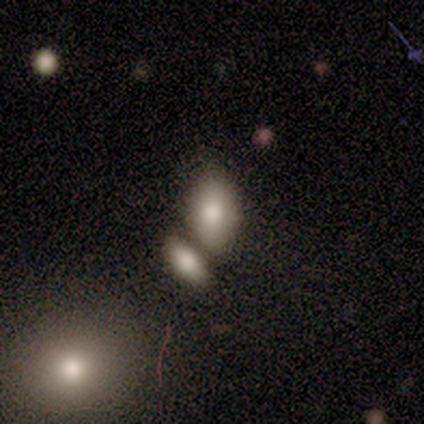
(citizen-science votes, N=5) Smooth or featured? 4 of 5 (80%) said smooth. How rounded? 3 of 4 (75%) said in between. Merging? 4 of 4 (100%) said none.